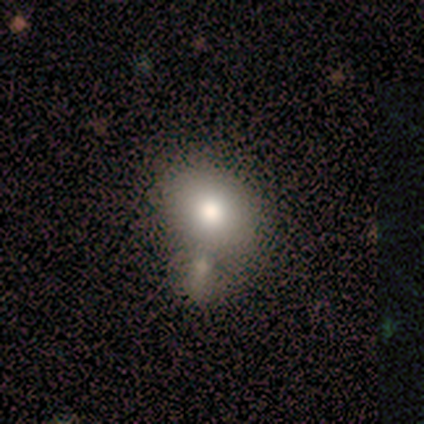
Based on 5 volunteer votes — Volunteers were most divided on "merging" (2-way tie): minor disturbance: 40%, merger: 40%, none: 20%, major disturbance: 0%. More confident: how rounded — in between (67%); smooth or featured — smooth (60%).